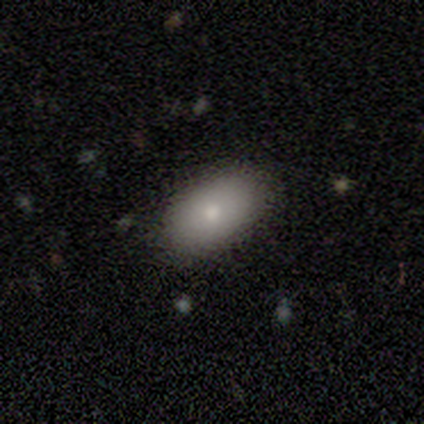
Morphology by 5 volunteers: A smooth galaxy with no disk features (100%) that is in between round and cigar-shaped (100%). Merging: none (100%).